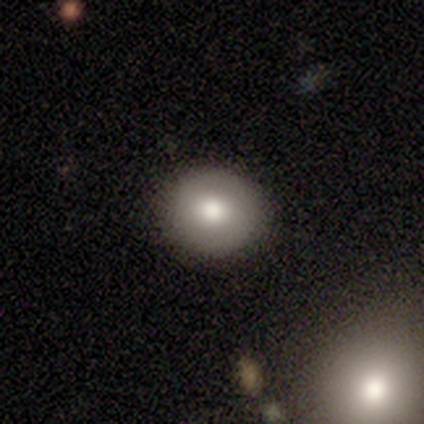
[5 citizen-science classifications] smooth_or_featured: smooth (p=0.80) [alt: featured or disk p=0.20]
how_rounded: round (p=1.00)
merging: none (p=1.00)